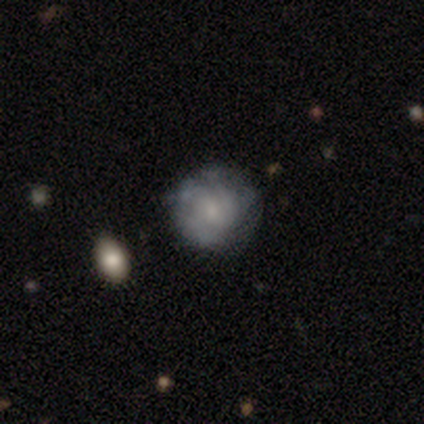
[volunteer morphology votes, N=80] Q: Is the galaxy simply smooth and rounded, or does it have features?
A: featured or disk — 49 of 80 (61%).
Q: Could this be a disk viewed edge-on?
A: no — 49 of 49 (100%).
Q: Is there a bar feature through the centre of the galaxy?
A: no — 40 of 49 (82%).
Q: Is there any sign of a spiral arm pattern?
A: yes — 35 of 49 (71%).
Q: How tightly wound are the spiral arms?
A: tight — 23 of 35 (66%).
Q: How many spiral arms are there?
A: can't tell — 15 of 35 (43%).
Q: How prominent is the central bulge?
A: small — 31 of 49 (63%).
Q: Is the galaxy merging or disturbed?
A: none — 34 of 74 (46%).